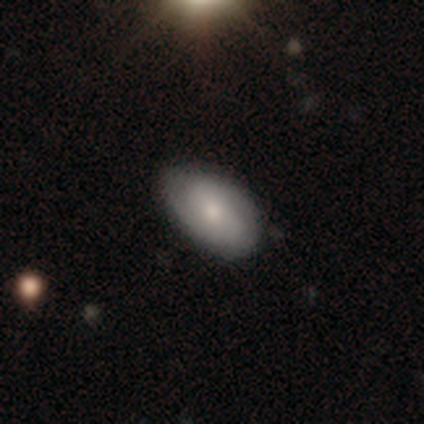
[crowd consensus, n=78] Q: Smooth or featured?
A: smooth (58%); runner-up: featured or disk (41%)
Q: How rounded?
A: in between (93%); runner-up: cigar-shaped (4%)
Q: Merging?
A: none (38%); runner-up: minor disturbance (12%)